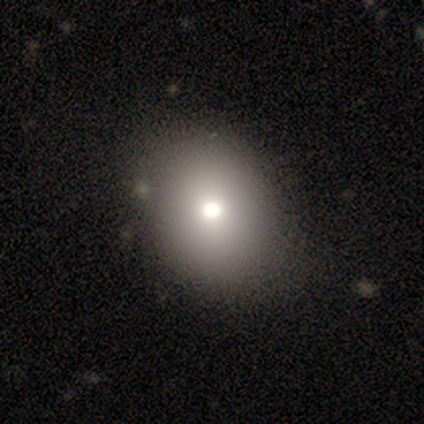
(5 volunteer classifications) Smooth or featured? smooth (100%)
How rounded? in between (60%)
Merging? none (100%)